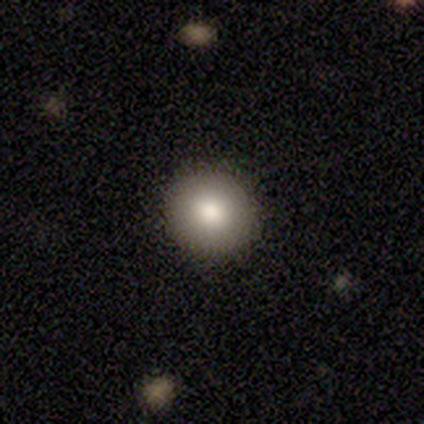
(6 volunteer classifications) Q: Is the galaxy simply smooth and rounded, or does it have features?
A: smooth — 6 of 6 (100%).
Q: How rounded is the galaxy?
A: round — 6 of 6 (100%).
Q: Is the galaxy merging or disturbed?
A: none — 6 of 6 (100%).